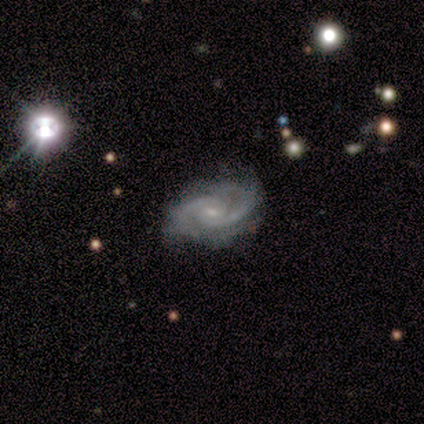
Overall: featured or disk (100%). Edge-on disk: no (100%). Bar: no (70%; weak 30%). Spiral arms: yes (100%). Spiral arm count: 2 (80%). Spiral winding: medium (80%). Bulge size: small (80%). Merging: none (80%).